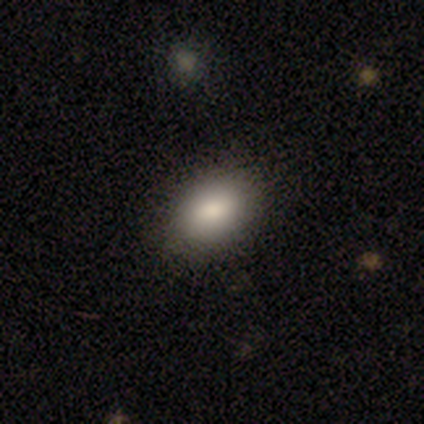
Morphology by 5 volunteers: Smooth or featured?
  - smooth: 60% *
  - featured or disk: 20%
  - star or artifact: 20%
How rounded?
  - in between: 100% *
  - round: 0%
  - cigar-shaped: 0%
Merging?
  - none: 100% *
  - minor disturbance: 0%
  - major disturbance: 0%
  - merger: 0%